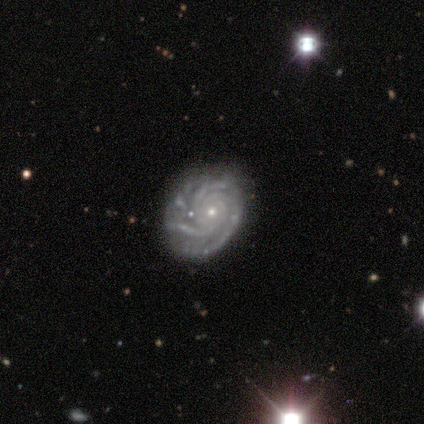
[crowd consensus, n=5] Smooth or featured: featured or disk — 100%
Edge-on disk: no — 100%
Bar: no — 100%
Spiral arms: yes — 100%
Spiral winding: tight — 80% (medium — 20%)
Spiral arm count: 3 — 80% (more than 4 — 20%)
Bulge size: small — 80% (moderate — 20%)
Merging: minor disturbance — 60% (none — 40%)